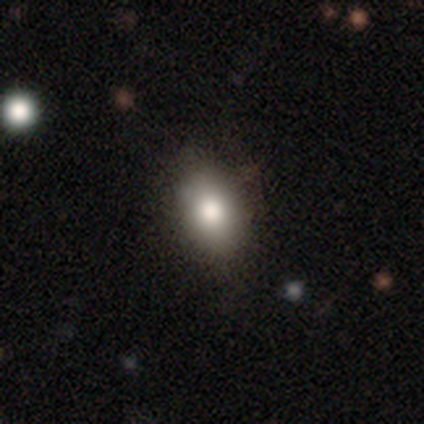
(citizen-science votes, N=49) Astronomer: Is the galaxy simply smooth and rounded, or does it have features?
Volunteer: smooth — 82%.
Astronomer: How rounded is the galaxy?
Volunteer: in between — 82%.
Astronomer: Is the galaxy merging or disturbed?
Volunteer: none — 74%.